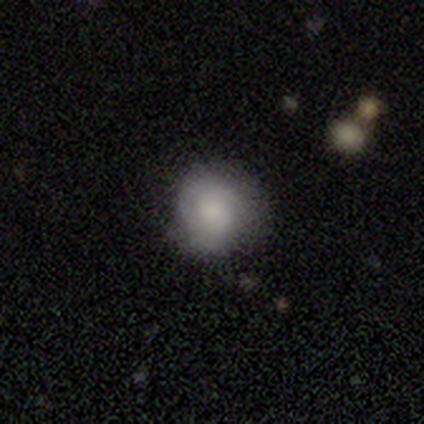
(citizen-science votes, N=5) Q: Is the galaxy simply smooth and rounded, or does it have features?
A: smooth — 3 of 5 (60%).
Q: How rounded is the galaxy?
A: round — 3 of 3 (100%).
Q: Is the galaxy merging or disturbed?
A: none — 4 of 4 (100%).